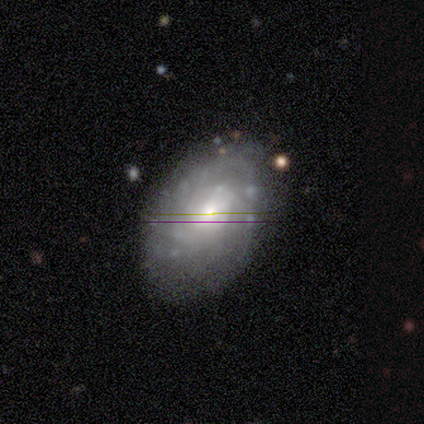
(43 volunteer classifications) Smooth or featured? featured or disk (84%)
Edge-on disk? no (100%)
Bar? no (61%)
Spiral arms? yes (83%)
Spiral winding? tight (53%)
Spiral arm count? can't tell (47%)
Bulge size? moderate (56%)
Merging? none (59%)